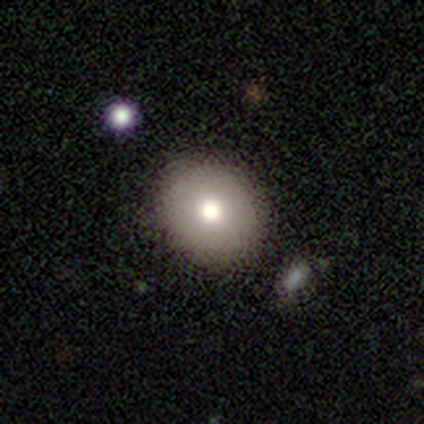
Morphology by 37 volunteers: Q: Smooth or featured?
A: smooth (76%); runner-up: star or artifact (14%)
Q: How rounded?
A: round (79%); runner-up: in between (21%)
Q: Merging?
A: none (78%); runner-up: minor disturbance (16%)